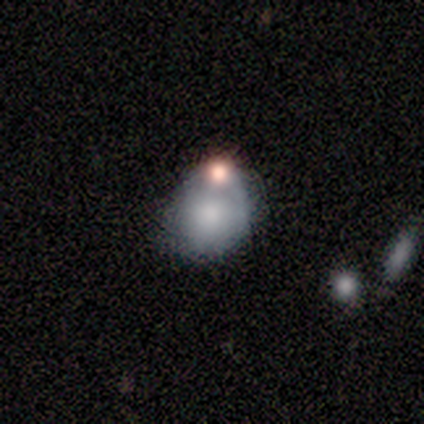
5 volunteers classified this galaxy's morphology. type=smooth (40%, tied with featured or disk); roundness=round (50%, tied with in between); merging=none (25%, tied with minor disturbance, major disturbance and merger).